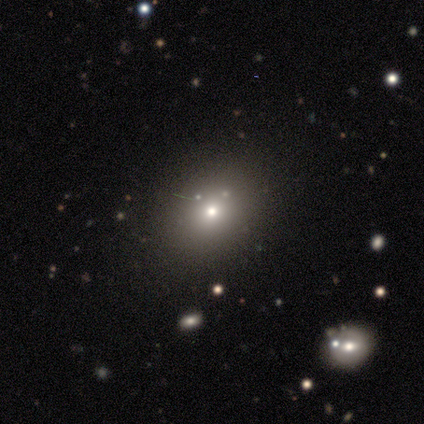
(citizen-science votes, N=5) Smooth or featured? 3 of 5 (60%) said smooth. How rounded? 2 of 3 (67%) said in between. Merging? 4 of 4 (100%) said none.